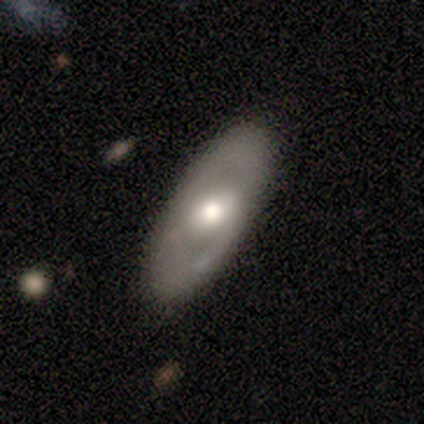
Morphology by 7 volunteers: Smooth or featured: featured or disk — 57% (smooth — 29%)
Edge-on disk: no — 100%
Bar: weak — 75% (no — 25%)
Spiral arms: yes — 50% (tied with no — 50%)
Spiral winding: medium — 100%
Spiral arm count: 2 — 100%
Bulge size: moderate — 50% (large — 25%)
Merging: none — 83% (minor disturbance — 17%)